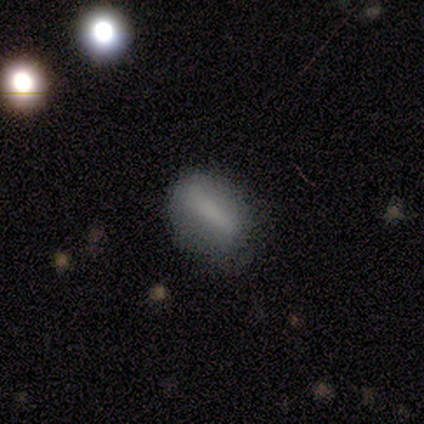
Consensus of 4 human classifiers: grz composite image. It shows a smooth galaxy with no disk features (75%) that is round (67%). Merging: none (75%).